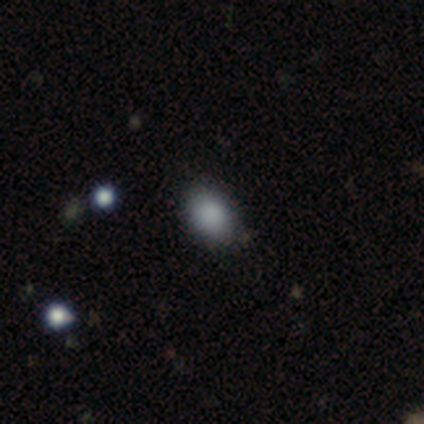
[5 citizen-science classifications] smooth_or_featured: smooth (p=0.60) [alt: featured or disk p=0.20]
how_rounded: round (p=0.67) [alt: in between p=0.33]
merging: none (p=0.75) [alt: merger p=0.25]